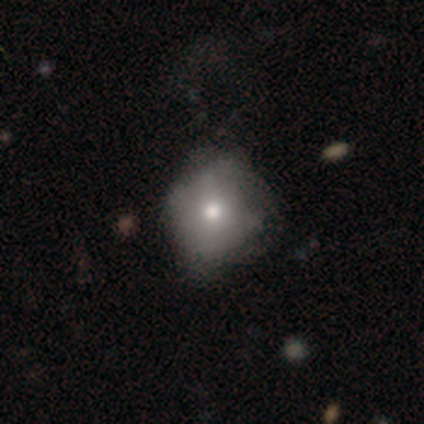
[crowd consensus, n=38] Morphology: type=smooth (68%); roundness=round (77%); merging=none (51%).